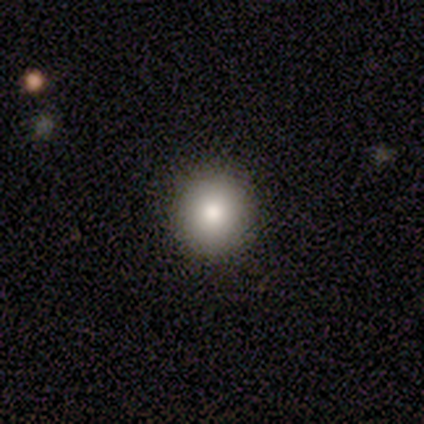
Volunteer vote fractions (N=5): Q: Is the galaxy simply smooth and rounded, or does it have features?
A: smooth — 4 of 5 (80%).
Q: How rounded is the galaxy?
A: round — 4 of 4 (100%).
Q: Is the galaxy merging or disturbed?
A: none — 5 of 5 (100%).